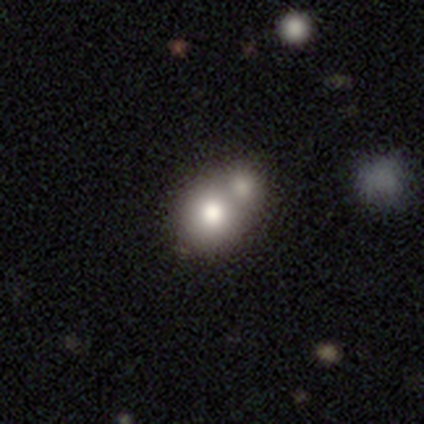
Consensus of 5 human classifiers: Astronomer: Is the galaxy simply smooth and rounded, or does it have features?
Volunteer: smooth — 80%.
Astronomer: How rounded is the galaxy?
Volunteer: in between — 75%.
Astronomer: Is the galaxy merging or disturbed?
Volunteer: merger — 60% (runner-up: none, 40%).